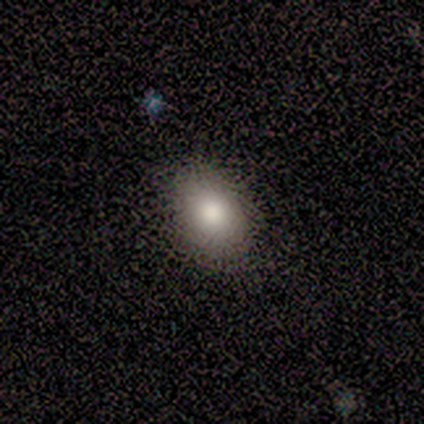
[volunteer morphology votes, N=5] Volunteers were most divided on "how rounded": in between: 60%, round: 40%, cigar-shaped: 0%. More confident: smooth or featured — smooth (100%); merging — none (100%).